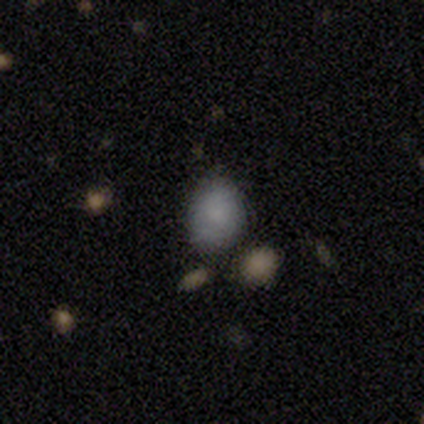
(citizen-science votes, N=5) Volunteers were most divided on "how rounded": round: 60%, in between: 40%, cigar-shaped: 0%. More confident: smooth or featured — smooth (100%); merging — none (80%).